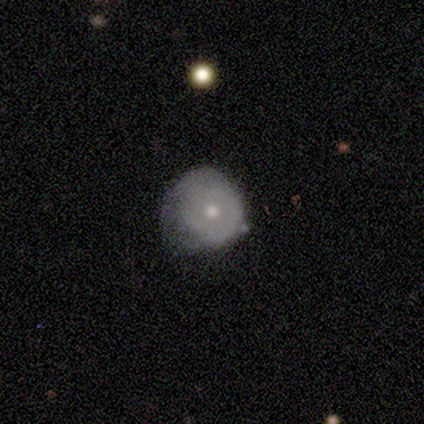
Overall: smooth (40%, tied with star or artifact). How rounded: round (100%). Merging: none (33%, tied with minor disturbance and major disturbance).